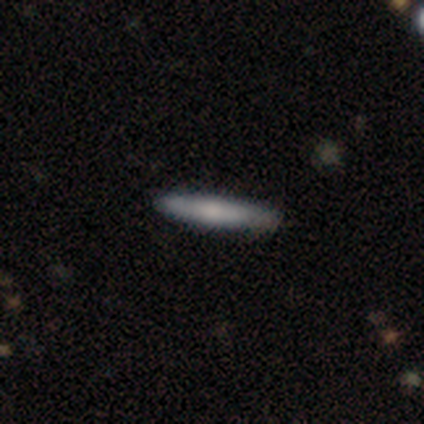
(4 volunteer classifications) smooth-or-featured: smooth: 50% (tied) | featured or disk: 50% (tied) | star or artifact: 0%
  how-rounded: cigar-shaped: 100% | round: 0% | in between: 0%
  merging: none: 100% | minor disturbance: 0% | major disturbance: 0% | merger: 0%